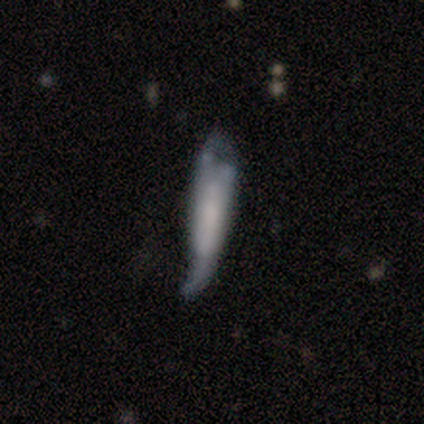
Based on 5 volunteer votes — This appears to be a featured or disk galaxy (80%) with no bar (100%), no spiral arms (67%) and no central bulge (100%). Merging: major disturbance (60%).